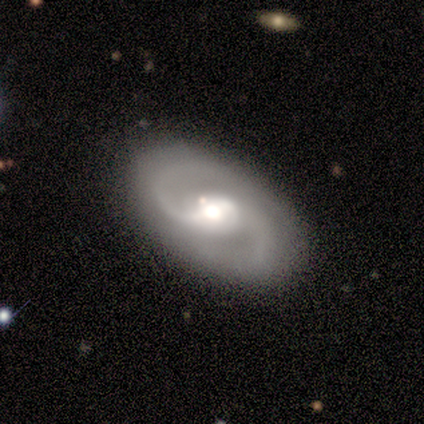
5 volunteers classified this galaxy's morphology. Volunteers were most divided on "bar" (2-way tie): weak: 40%, no: 40%, strong: 20%. More confident: smooth or featured — featured or disk (100%); edge-on disk — no (100%); spiral arms — yes (100%); spiral arm count — 2 (100%); merging — none (100%); spiral winding — medium (80%); bulge size — moderate (60%).